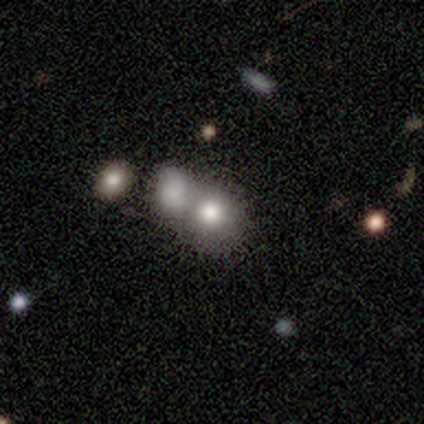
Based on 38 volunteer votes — Morphology: type=smooth (71%); roundness=round (78%); merging=merger (74%).